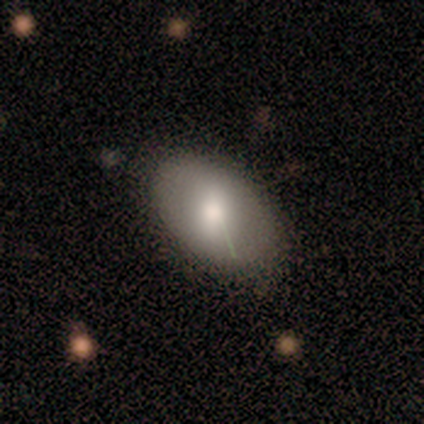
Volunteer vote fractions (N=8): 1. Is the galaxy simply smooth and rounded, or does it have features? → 100% smooth, 0% featured or disk, 0% star or artifact.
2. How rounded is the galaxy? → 88% in between, 12% round, 0% cigar-shaped.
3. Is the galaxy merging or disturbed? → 88% none, 12% minor disturbance, 0% major disturbance, 0% merger.